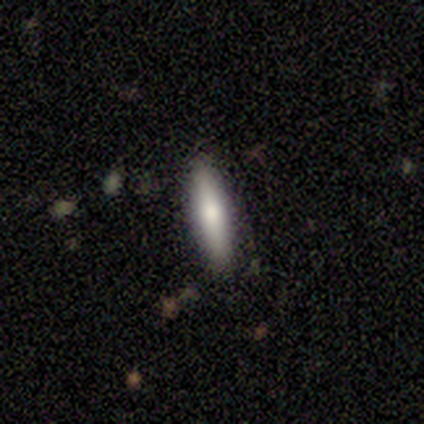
Volunteers were most divided on "smooth or featured": smooth: 67%, featured or disk: 33%, star or artifact: 0%. More confident: how rounded — cigar-shaped (100%); merging — none (100%).